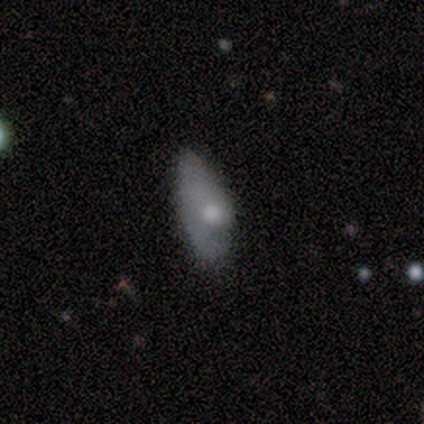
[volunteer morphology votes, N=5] This is likely a featured or disk galaxy (60%). It is clearly not viewed edge-on (100%). Bar: clearly no (100%). Spiral arm pattern: likely no (67%). Central bulge: likely moderate (67%). Merging: clearly none (80%).